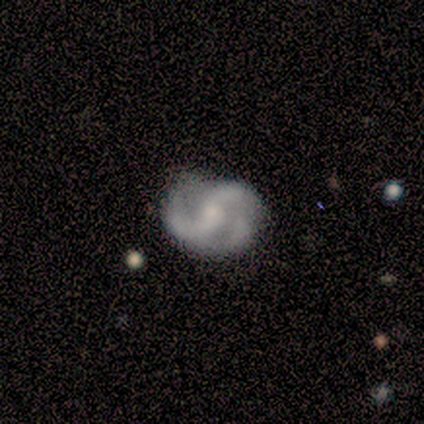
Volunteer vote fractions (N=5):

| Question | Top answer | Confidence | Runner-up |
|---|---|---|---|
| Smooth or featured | featured or disk | 100% | — |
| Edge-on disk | no | 100% | — |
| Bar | no | 60% | weak (40%) |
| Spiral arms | yes | 100% | — |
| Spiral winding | tight | 60% | medium (40%) |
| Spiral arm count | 2 | 60% | 3 (40%) |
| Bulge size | moderate | 60% | small (40%) |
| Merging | none | 100% | — |